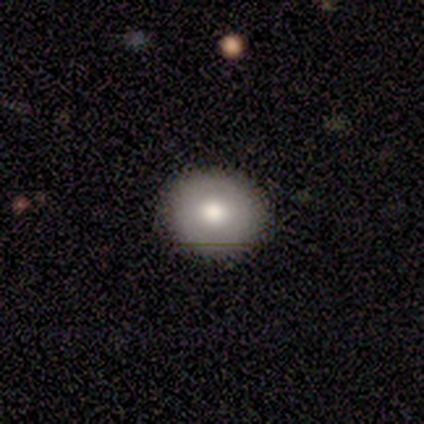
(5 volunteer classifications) A smooth galaxy with no disk features (60%) that is round (67%). Merging: none (80%).